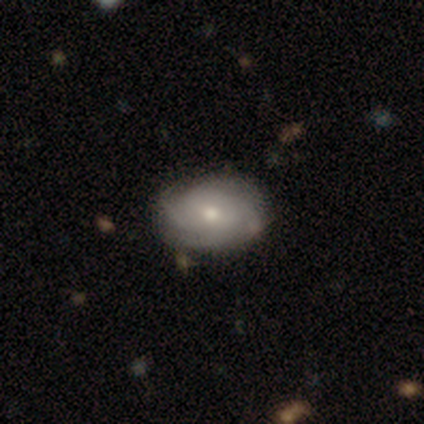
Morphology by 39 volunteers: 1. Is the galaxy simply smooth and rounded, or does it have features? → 67% featured or disk, 28% smooth, 5% star or artifact.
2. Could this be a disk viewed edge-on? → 92% no, 8% yes.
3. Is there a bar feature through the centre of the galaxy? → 67% no, 33% weak, 0% strong.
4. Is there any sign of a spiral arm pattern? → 88% yes, 12% no.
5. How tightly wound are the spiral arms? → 52% tight, 29% medium, 19% loose.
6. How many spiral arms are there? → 29% 3, 24% 4, 24% can't tell, 14% 2, 10% 1, 0% more than 4.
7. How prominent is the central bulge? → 50% moderate, 46% small, 4% dominant, 0% large, 0% none.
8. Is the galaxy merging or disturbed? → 81% none, 14% minor disturbance, 3% major disturbance, 3% merger.